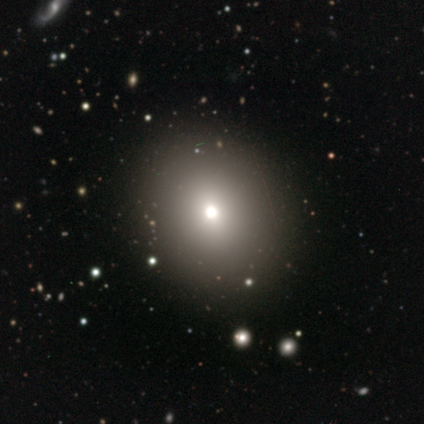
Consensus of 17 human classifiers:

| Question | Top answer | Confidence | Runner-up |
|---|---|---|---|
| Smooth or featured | smooth | 71% | star or artifact (18%) |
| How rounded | round | 75% | in between (25%) |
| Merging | none | 86% | major disturbance (14%) |